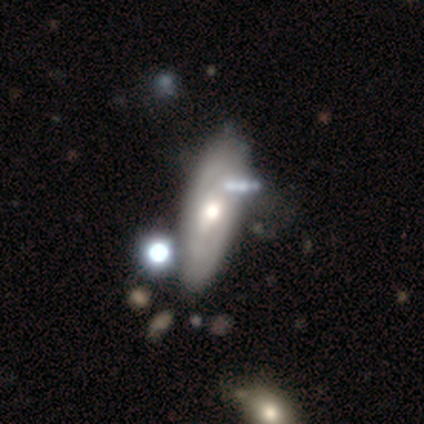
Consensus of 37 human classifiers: Smooth or featured: featured or disk — 59% (smooth — 38%)
Edge-on disk: no — 68% (yes — 32%)
Bar: no — 60% (weak — 40%)
Spiral arms: yes — 60% (no — 40%)
Spiral winding: tight — 44% (tied with medium — 44%)
Spiral arm count: can't tell — 78% (2 — 22%)
Bulge size: moderate — 73% (large — 20%)
Merging: none — 44% (minor disturbance — 31%)